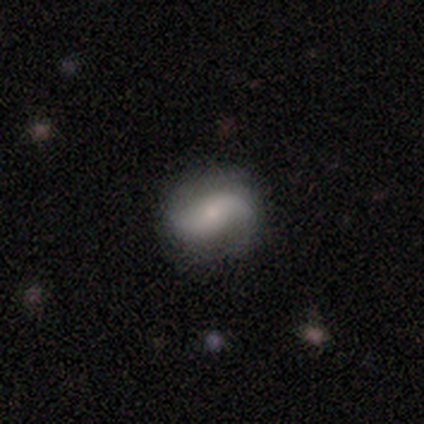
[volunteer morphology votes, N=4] Smooth or featured?
  - featured or disk: 100% *
  - smooth: 0%
  - star or artifact: 0%
Edge-on disk?
  - no: 100% *
  - yes: 0%
Bar?
  - no: 100% *
  - strong: 0%
  - weak: 0%
Spiral arms?
  - yes: 100% *
  - no: 0%
Spiral winding?
  - loose: 75% *
  - medium: 25%
  - tight: 0%
Spiral arm count?
  - 2: 100% *
  - 1: 0%
  - 3: 0%
  - 4: 0%
  - more than 4: 0%
  - can't tell: 0%
Bulge size?
  - small: 75% *
  - moderate: 25%
  - dominant: 0%
  - large: 0%
  - none: 0%
Merging?
  - none: 75% *
  - minor disturbance: 25%
  - major disturbance: 0%
  - merger: 0%